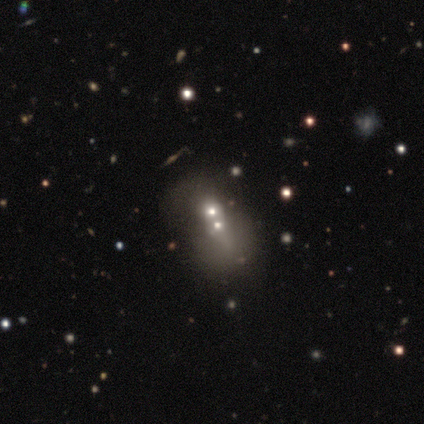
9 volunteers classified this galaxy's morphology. Smooth or featured? featured or disk (56%)
Edge-on disk? no (100%)
Bar? no (80%)
Spiral arms? no (100%)
Bulge size? small (60%)
Merging? merger (75%)